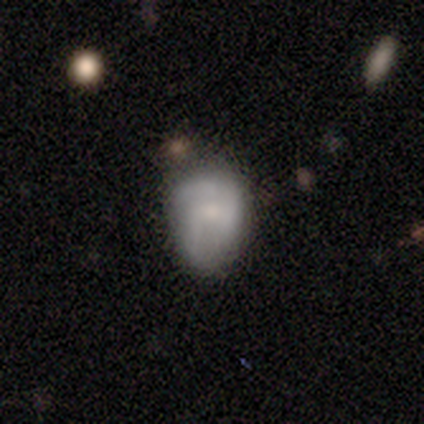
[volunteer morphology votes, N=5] Smooth or featured? smooth (60%)
How rounded? in between (67%)
Merging? minor disturbance (80%)